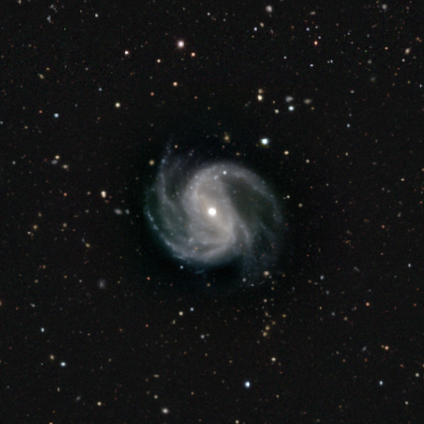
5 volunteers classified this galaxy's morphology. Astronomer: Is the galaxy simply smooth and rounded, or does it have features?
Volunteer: featured or disk — 100%.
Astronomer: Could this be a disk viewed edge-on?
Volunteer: no — 100%.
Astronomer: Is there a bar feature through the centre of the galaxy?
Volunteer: no — 60%.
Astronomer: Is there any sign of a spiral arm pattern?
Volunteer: yes — 100%.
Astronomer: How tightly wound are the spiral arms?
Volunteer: medium — 80%.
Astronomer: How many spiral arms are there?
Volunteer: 2 — 60%.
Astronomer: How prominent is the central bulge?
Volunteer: moderate — 80%.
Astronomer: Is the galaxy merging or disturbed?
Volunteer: none — 60%.